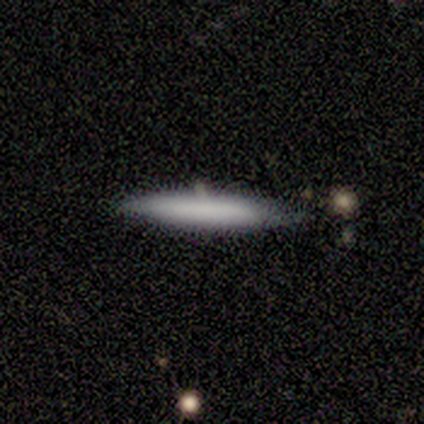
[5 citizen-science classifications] A smooth galaxy with no disk features (80%) that is cigar-shaped (75%). Merging: none (80%).